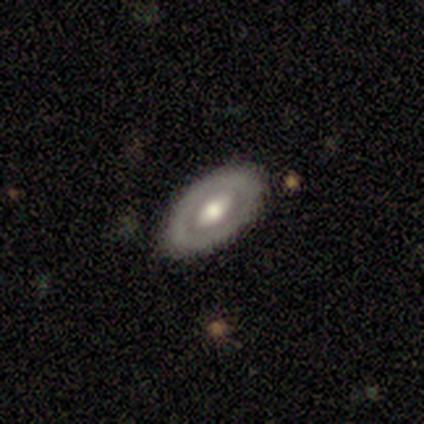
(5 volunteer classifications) Morphology: type=featured or disk (60%); edge-on=no (67%); bar=no (100%); spiral arms=yes (50%, tied with no); winding=loose (100%); arm count=2 (100%); bulge=moderate (100%); merging=none (100%).